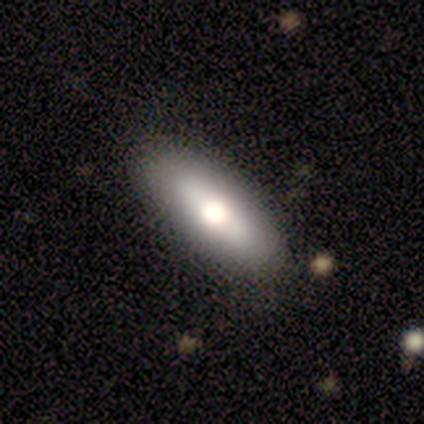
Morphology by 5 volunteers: Volunteers were most divided on "smooth or featured" (2-way tie): smooth: 40%, featured or disk: 40%, star or artifact: 20%. More confident: how rounded — in between (100%); merging — none (100%).